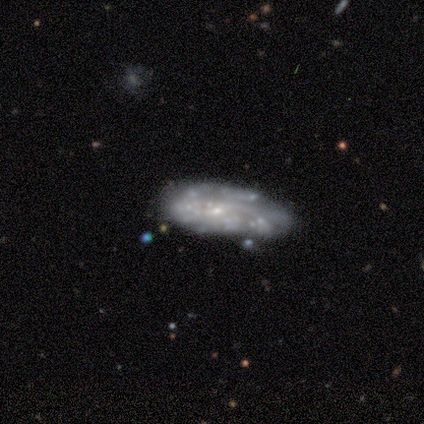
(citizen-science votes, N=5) This appears to be a featured or disk galaxy (100%) with no bar (60%), no spiral arms (60%) and a small central bulge (60%). Merging: none (60%).